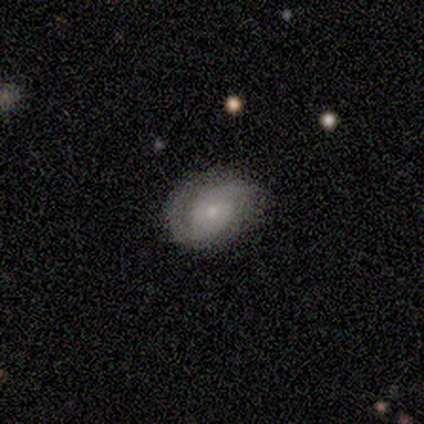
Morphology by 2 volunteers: Smooth or featured?
  - featured or disk: 100% *
  - smooth: 0%
  - star or artifact: 0%
Edge-on disk?
  - no: 100% *
  - yes: 0%
Bar?
  - weak: 100% *
  - strong: 0%
  - no: 0%
Spiral arms?
  - yes: 100% *
  - no: 0%
Spiral winding?
  - tight: 100% *
  - medium: 0%
  - loose: 0%
Spiral arm count?
  - 2: 100% *
  - 1: 0%
  - 3: 0%
  - 4: 0%
  - more than 4: 0%
  - can't tell: 0%
Bulge size?
  - small: 100% *
  - dominant: 0%
  - large: 0%
  - moderate: 0%
  - none: 0%
Merging?
  - none: 50% * (tied)
  - minor disturbance: 50% * (tied)
  - major disturbance: 0%
  - merger: 0%